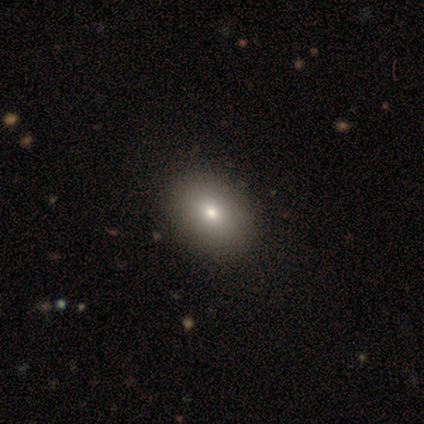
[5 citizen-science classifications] smooth-or-featured: smooth: 60% | featured or disk: 20% | star or artifact: 20%
  how-rounded: in between: 67% | round: 33% | cigar-shaped: 0%
  merging: none: 100% | minor disturbance: 0% | major disturbance: 0% | merger: 0%